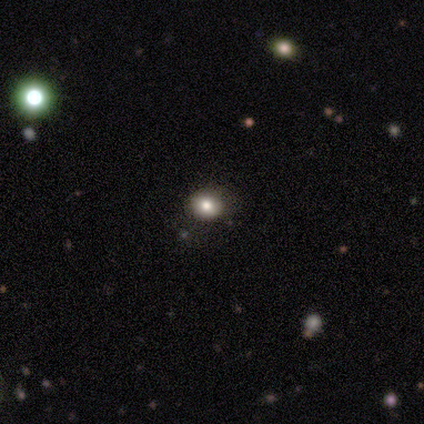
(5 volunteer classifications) Smooth or featured? 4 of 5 (80%) said smooth. How rounded? 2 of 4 (50%, tied with in between) said round. Merging? 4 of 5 (80%) said none.